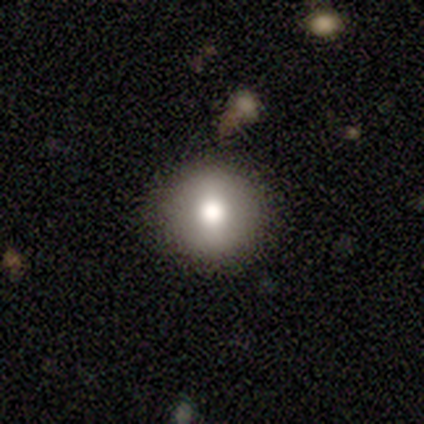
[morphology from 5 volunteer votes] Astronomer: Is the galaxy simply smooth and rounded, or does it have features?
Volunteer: smooth — 80%.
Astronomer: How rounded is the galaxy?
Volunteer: round — 75%.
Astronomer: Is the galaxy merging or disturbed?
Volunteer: none — 100%.